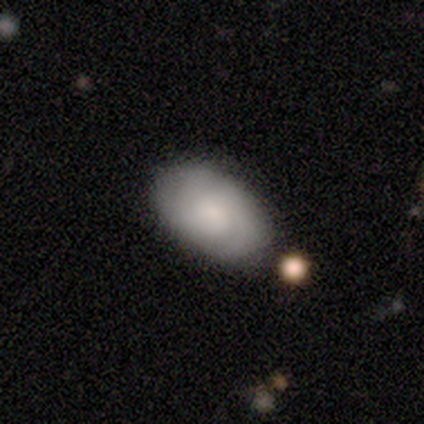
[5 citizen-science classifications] Smooth or featured?
  - smooth: 80% *
  - featured or disk: 20%
  - star or artifact: 0%
How rounded?
  - in between: 100% *
  - round: 0%
  - cigar-shaped: 0%
Merging?
  - none: 80% *
  - minor disturbance: 20%
  - major disturbance: 0%
  - merger: 0%